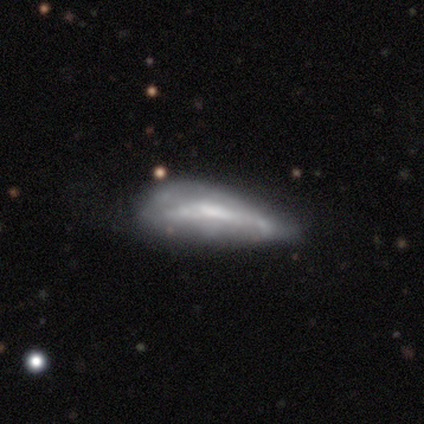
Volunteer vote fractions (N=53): A featured or disk galaxy (62%) with no bar (69%), no spiral arms (81%) and no central bulge (38%). Merging: minor disturbance (47%).